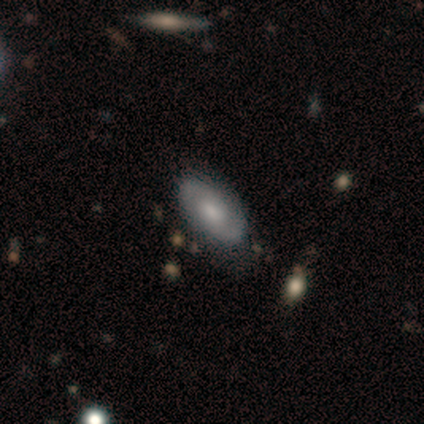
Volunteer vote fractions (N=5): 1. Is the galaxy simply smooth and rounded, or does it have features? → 60% featured or disk, 40% smooth, 0% star or artifact.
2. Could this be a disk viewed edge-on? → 100% no, 0% yes.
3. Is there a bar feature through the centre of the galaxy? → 100% weak, 0% strong, 0% no.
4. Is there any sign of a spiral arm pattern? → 100% yes, 0% no.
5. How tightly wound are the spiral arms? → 33% tight (tied), 33% medium (tied), 33% loose (tied).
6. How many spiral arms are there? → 100% 2, 0% 1, 0% 3, 0% 4, 0% more than 4, 0% can't tell.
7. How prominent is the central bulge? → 67% moderate, 33% small, 0% dominant, 0% large, 0% none.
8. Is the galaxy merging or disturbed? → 60% none, 40% minor disturbance, 0% major disturbance, 0% merger.